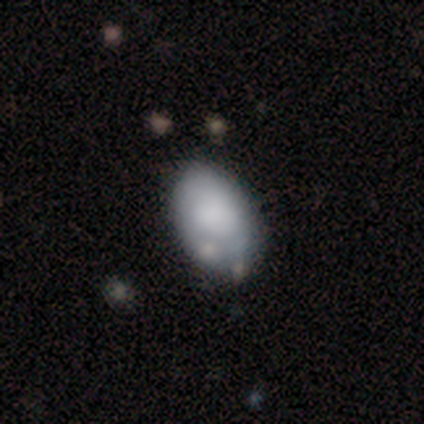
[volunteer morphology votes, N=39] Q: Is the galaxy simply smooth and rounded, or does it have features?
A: smooth — 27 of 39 (69%).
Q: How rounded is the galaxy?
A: in between — 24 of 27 (89%).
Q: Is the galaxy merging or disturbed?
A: none — 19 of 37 (51%).